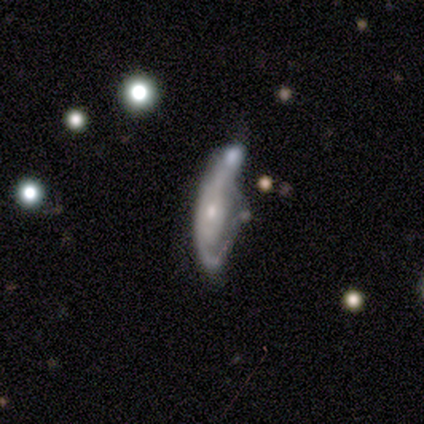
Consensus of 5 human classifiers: A featured or disk galaxy (80%) with no bar (100%), 1 (33%, tied with 2 and can't tell) loose (67%) spiral arms (75%) and a small central bulge (75%).

Vote fractions:
- Smooth or featured? featured or disk: 80% / smooth: 20% / star or artifact: 0%
- Edge-on disk? no: 100% / yes: 0%
- Bar? no: 100% / strong: 0% / weak: 0%
- Spiral arms? yes: 75% / no: 25%
- Spiral winding? loose: 67% / tight: 33% / medium: 0%
- Spiral arm count? 1: 33% (tied) / 2: 33% (tied) / can't tell: 33% (tied) / 3: 0% / 4: 0% / more than 4: 0%
- Bulge size? small: 75% / moderate: 25% / dominant: 0% / large: 0% / none: 0%
- Merging? minor disturbance: 40% (tied) / major disturbance: 40% (tied) / merger: 20% / none: 0%